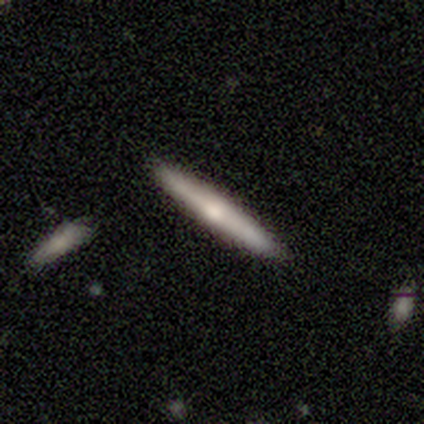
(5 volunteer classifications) Q: Smooth or featured?
A: smooth (80%); runner-up: featured or disk (20%)
Q: How rounded?
A: cigar-shaped (100%)
Q: Merging?
A: none (100%)